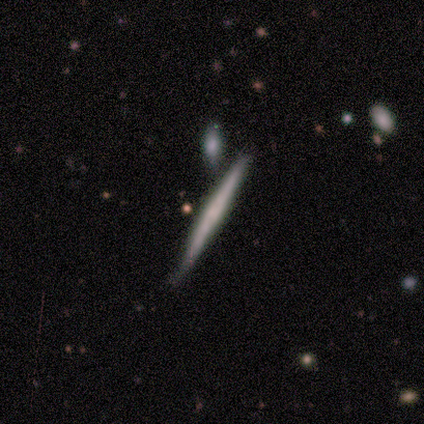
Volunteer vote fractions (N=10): smooth-or-featured: featured or disk: 50% | smooth: 40% | star or artifact: 10%
  disk-edge-on: yes: 100% | no: 0%
    edge-on-bulge: none: 80% | rounded: 20% | boxy: 0%
  merging: none: 67% | minor disturbance: 33% | major disturbance: 0% | merger: 0%